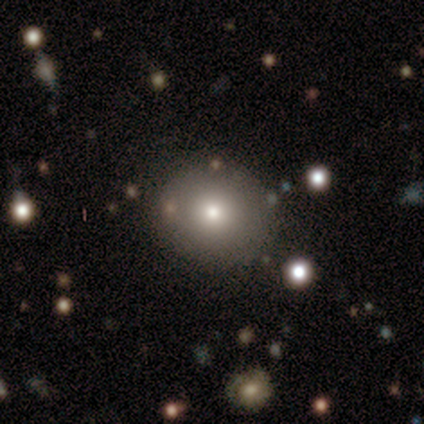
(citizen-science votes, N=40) A smooth galaxy with no disk features (65%) that is round (96%).

Vote fractions:
- Smooth or featured? smooth: 65% / featured or disk: 22% / star or artifact: 12%
- How rounded? round: 96% / in between: 4% / cigar-shaped: 0%
- Merging? none: 91% / merger: 6% / minor disturbance: 3% / major disturbance: 0%